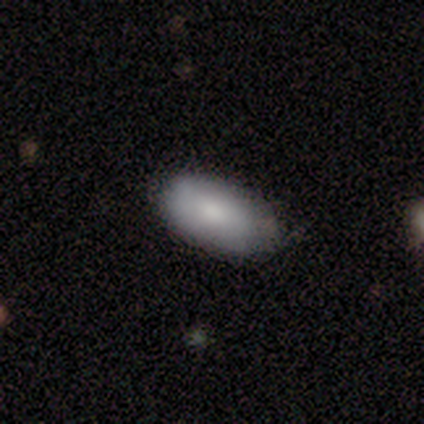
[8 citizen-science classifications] Smooth or featured? smooth (50%, tied with featured or disk)
How rounded? in between (100%)
Merging? none (75%)